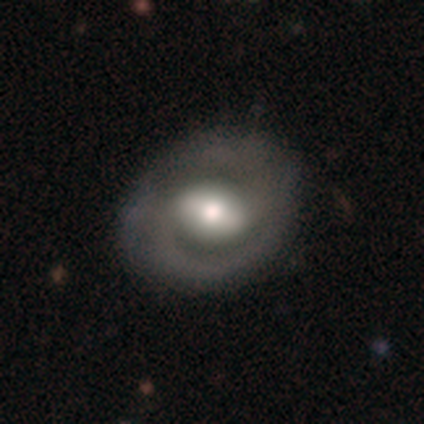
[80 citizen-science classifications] This is likely a featured or disk galaxy (74%). It is clearly not viewed edge-on (100%). Bar: marginally strong (42%, tied with weak). Spiral arm pattern: clearly yes (88%). Spiral arm count: clearly 2 (92%). Spiral winding: marginally medium (42%). Central bulge: possibly moderate (49%). Merging: marginally none (41%).